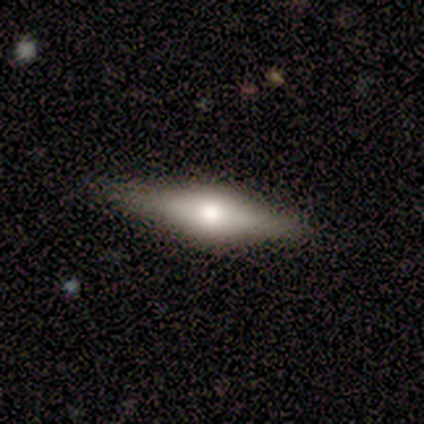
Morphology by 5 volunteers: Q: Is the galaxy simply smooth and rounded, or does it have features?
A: featured or disk — 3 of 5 (60%).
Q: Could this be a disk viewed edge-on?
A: yes — 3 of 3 (100%).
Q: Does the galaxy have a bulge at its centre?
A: rounded — 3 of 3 (100%).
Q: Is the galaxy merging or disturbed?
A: none — 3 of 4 (75%).